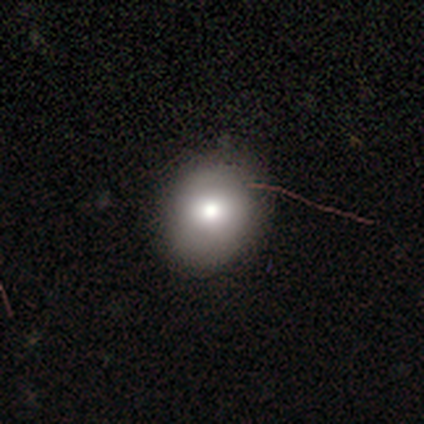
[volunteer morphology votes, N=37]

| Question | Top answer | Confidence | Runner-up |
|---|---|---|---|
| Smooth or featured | smooth | 68% | star or artifact (19%) |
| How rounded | round | 52% | in between (44%) |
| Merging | none | 80% | minor disturbance (17%) |